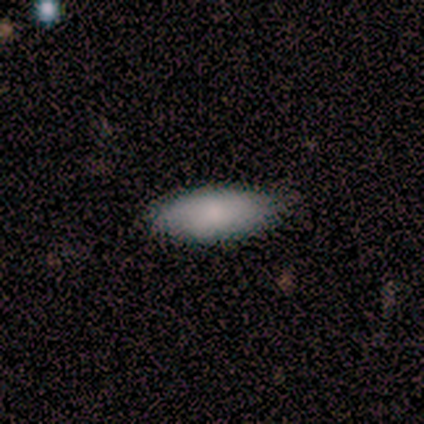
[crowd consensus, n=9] smooth-or-featured: smooth: 100% | featured or disk: 0% | star or artifact: 0%
  how-rounded: in between: 78% | cigar-shaped: 22% | round: 0%
  merging: none: 89% | minor disturbance: 11% | major disturbance: 0% | merger: 0%